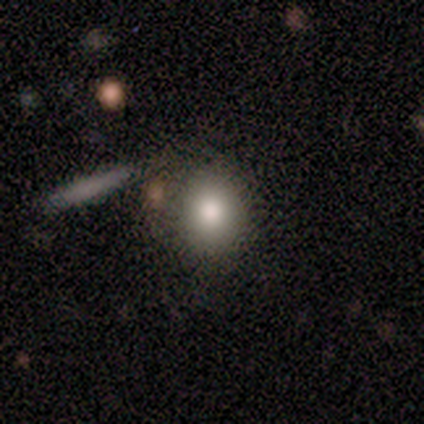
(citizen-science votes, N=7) This is likely a smooth galaxy (71%). How rounded: clearly round (100%). Merging: likely none (71%).